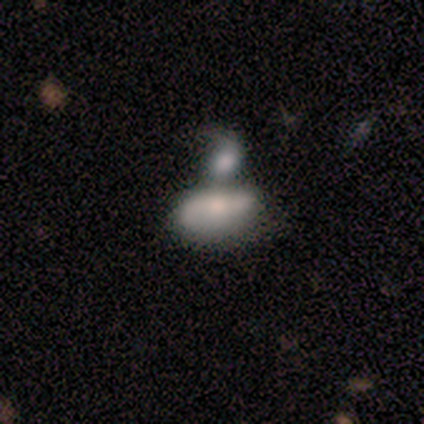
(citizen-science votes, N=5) Smooth or featured? 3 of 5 (60%) said smooth. How rounded? 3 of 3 (100%) said in between. Merging? 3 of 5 (60%) said merger.